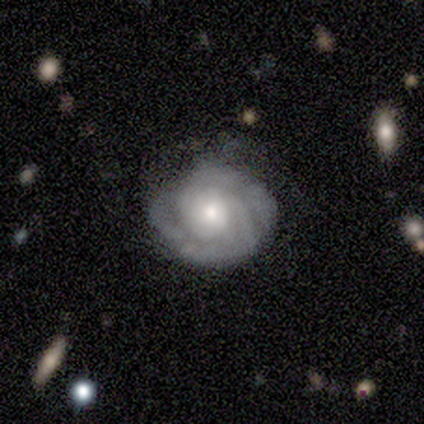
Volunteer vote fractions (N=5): This appears to be a smooth galaxy with no disk features (40%, tied with featured or disk) that is round (50%, tied with in between). Merging: none (75%).